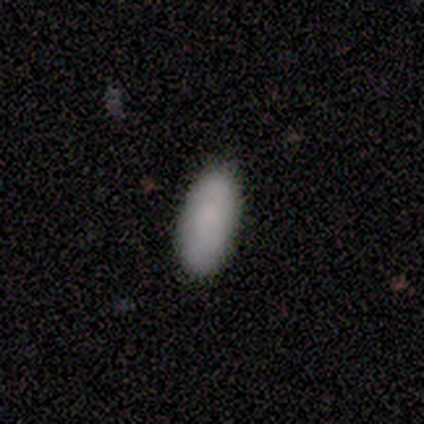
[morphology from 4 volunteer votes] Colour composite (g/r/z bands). It shows a smooth galaxy with no disk features (50%, tied with featured or disk) that is in between round and cigar-shaped (100%). Merging: none (100%).